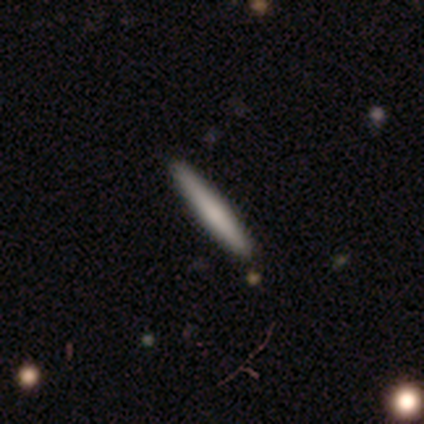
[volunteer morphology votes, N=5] Smooth or featured: smooth — 60% (featured or disk — 40%)
How rounded: cigar-shaped — 100%
Merging: none — 100%